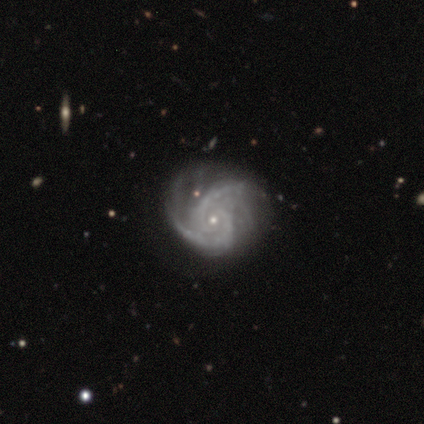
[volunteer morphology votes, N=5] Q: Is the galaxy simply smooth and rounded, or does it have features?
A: featured or disk — 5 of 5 (100%).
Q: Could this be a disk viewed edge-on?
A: no — 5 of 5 (100%).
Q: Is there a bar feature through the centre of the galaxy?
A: no — 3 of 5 (60%).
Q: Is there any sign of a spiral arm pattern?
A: yes — 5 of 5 (100%).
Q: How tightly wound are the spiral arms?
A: medium — 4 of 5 (80%).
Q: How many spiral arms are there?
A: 2 — 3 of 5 (60%).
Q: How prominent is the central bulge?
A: small — 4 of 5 (80%).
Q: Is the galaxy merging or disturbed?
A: none — 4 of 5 (80%).